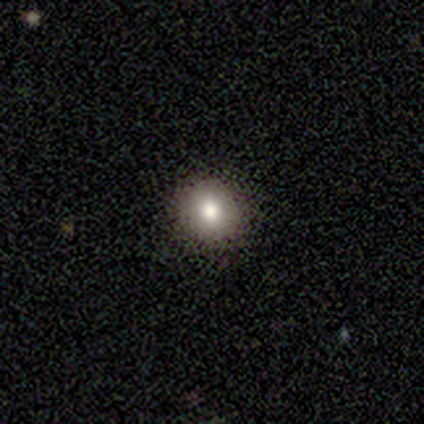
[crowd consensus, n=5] A smooth galaxy with no disk features (100%) that is round (80%). Merging: none (80%).